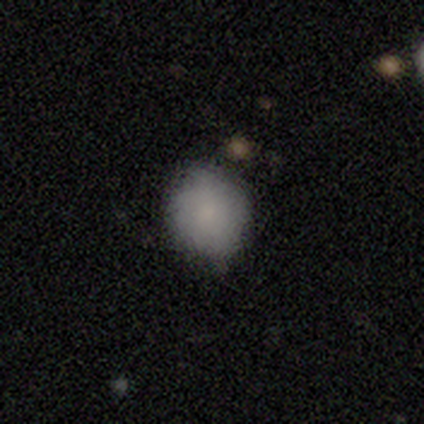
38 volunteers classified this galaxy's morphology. This appears to be a smooth galaxy with no disk features (87%) that is round (73%). Merging: none (62%).